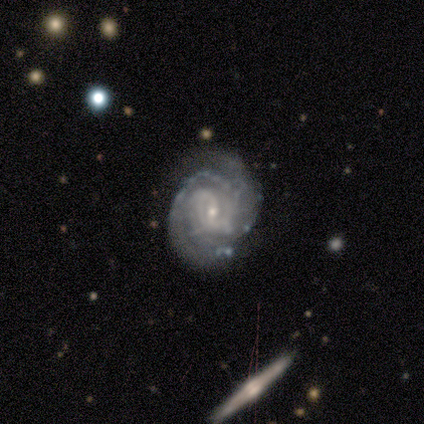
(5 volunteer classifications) Overall: featured or disk (100%). Edge-on disk: no (100%). Bar: weak (80%). Spiral arms: yes (100%). Spiral arm count: 2 (60%; can't tell 40%). Spiral winding: tight (80%). Bulge size: moderate (40%, tied with small). Merging: major disturbance (60%; none 20%).